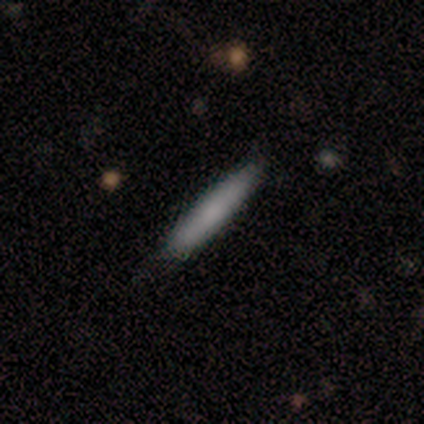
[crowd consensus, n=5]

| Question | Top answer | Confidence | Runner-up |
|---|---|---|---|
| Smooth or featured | smooth | 100% | — |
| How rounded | cigar-shaped | 80% | in between (20%) |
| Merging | none | 80% | minor disturbance (20%) |